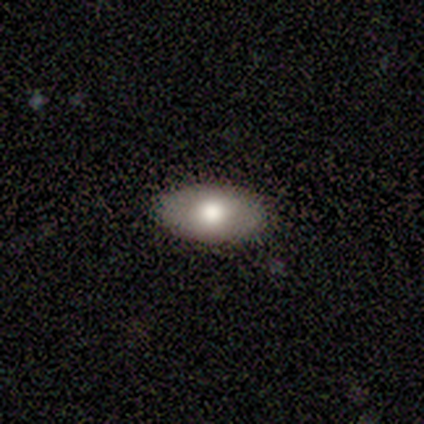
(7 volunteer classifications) Smooth or featured? smooth (71%)
How rounded? in between (100%)
Merging? none (100%)